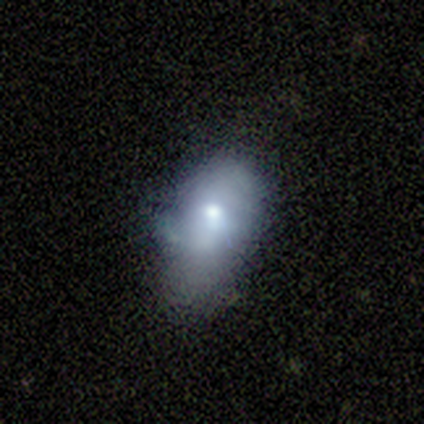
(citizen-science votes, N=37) smooth 54%, featured or disk 27%, star or artifact 19%. Down the decision tree: how rounded — in between (95%); merging — minor disturbance (50%).